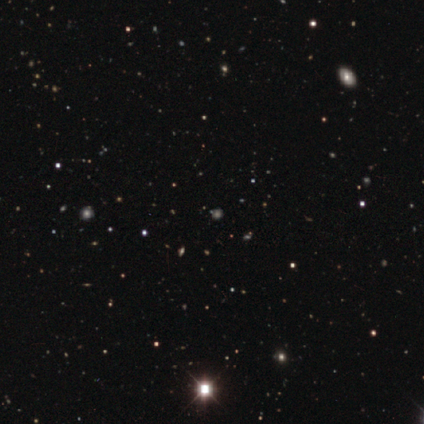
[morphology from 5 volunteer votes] smooth_or_featured: star or artifact (p=1.00)